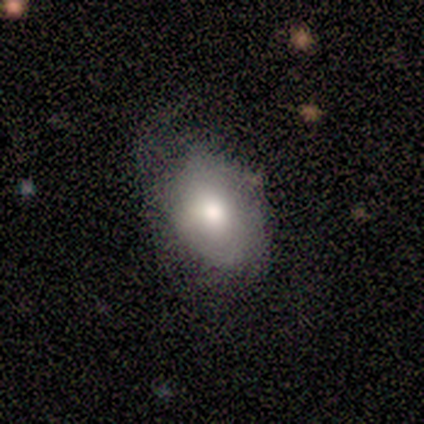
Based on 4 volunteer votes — Smooth or featured? 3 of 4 (75%) said featured or disk. Edge-on disk? 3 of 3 (100%) said no. Bar? 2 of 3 (67%) said no. Spiral arms? 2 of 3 (67%) said no. Bulge size? 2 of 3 (67%) said moderate. Merging? 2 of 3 (67%) said minor disturbance.